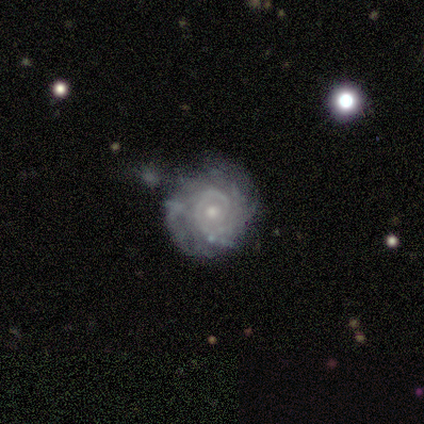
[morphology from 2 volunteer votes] smooth-or-featured: featured or disk: 100% | smooth: 0% | star or artifact: 0%
  disk-edge-on: no: 100% | yes: 0%
    bar: strong: 50% (tied) | no: 50% (tied) | weak: 0%
    has-spiral-arms: yes: 100% | no: 0%
      spiral-winding: tight: 50% (tied) | loose: 50% (tied) | medium: 0%
      spiral-arm-count: 1: 50% (tied) | can't tell: 50% (tied) | 2: 0% | 3: 0% | 4: 0% | more than 4: 0%
    bulge-size: moderate: 50% (tied) | small: 50% (tied) | dominant: 0% | large: 0% | none: 0%
  merging: merger: 100% | none: 0% | minor disturbance: 0% | major disturbance: 0%